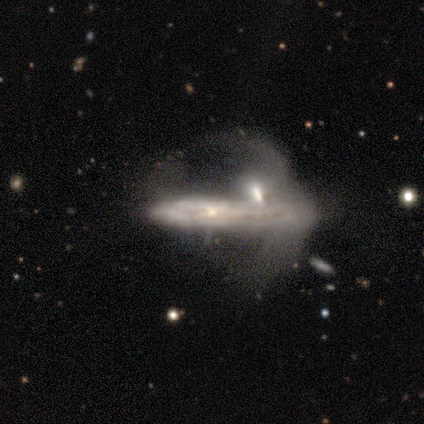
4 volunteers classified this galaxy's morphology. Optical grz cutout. It shows a featured or disk galaxy (75%) viewed edge-on (67%) with no central bulge (50%, tied with rounded). Merging: merger (50%).